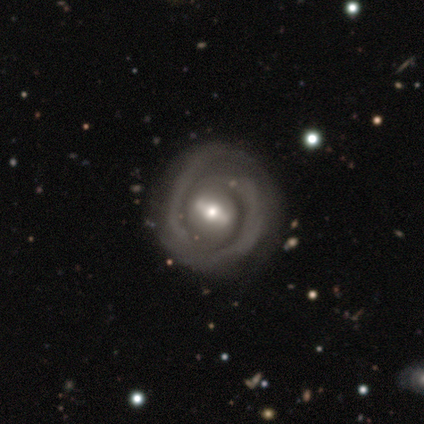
smooth_or_featured: featured or disk (p=1.00)
disk_edge_on: no (p=1.00)
bar: strong (p=0.67) [alt: weak p=0.33]
has_spiral_arms: yes (p=0.67) [alt: no p=0.33]
spiral_winding: tight (p=0.50) [tied with: medium p=0.50]
spiral_arm_count: 2 (p=0.50) [alt: 1 p=0.25]
bulge_size: moderate (p=0.67) [alt: small p=0.33]
merging: none (p=0.50) [tied with: major disturbance p=0.50]